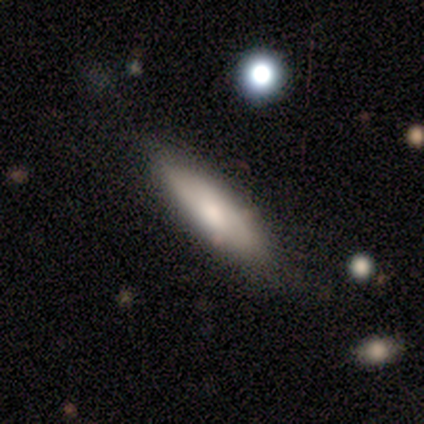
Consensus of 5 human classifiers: Overall: featured or disk (60%; smooth 40%). Edge-on disk: no (67%; yes 33%). Bar: no (100%). Spiral arms: no (100%). Bulge size: large (50%, tied with moderate). Merging: none (80%).